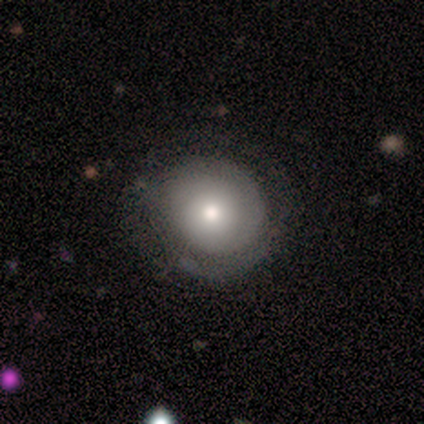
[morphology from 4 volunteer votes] This is possibly a smooth galaxy (50%). How rounded: clearly round (100%). Merging: likely none (67%).